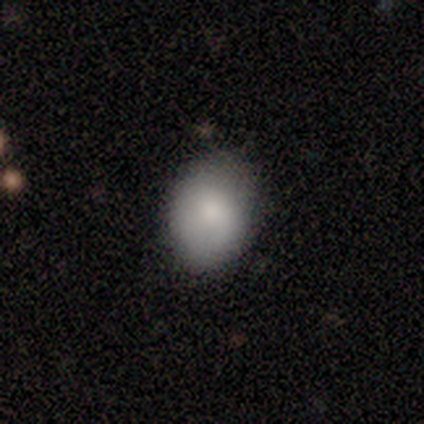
A smooth galaxy with no disk features (77%) that is in between round and cigar-shaped (80%).

Vote fractions:
- Smooth or featured? smooth: 77% / featured or disk: 15% / star or artifact: 8%
- How rounded? in between: 80% / round: 20% / cigar-shaped: 0%
- Merging? none: 67% / minor disturbance: 33% / major disturbance: 0% / merger: 0%